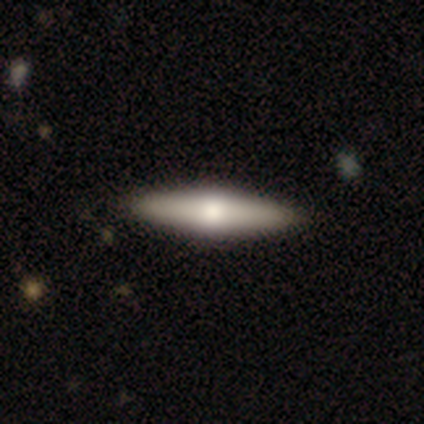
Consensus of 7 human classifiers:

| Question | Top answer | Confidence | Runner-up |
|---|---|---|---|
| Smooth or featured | featured or disk | 57% | smooth (43%) |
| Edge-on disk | yes | 100% | — |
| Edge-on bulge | rounded | 100% | — |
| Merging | none | 100% | — |